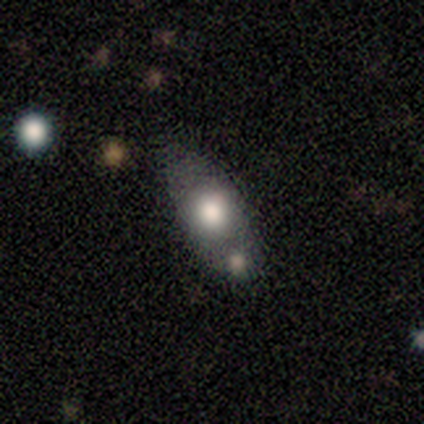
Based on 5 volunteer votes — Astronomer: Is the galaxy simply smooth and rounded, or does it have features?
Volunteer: smooth — 80%.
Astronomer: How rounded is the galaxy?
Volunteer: in between — 100%.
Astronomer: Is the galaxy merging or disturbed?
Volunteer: none — 100%.